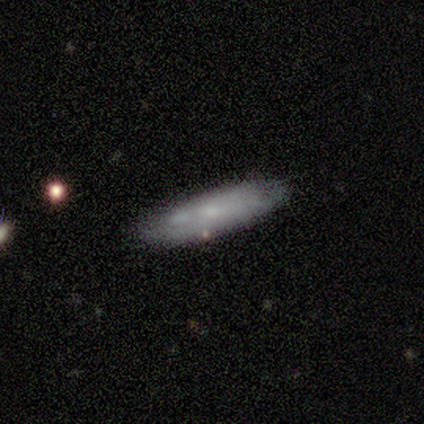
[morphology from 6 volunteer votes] smooth-or-featured: featured or disk: 50% | smooth: 33% | star or artifact: 17%
  disk-edge-on: no: 67% | yes: 33%
    bar: no: 100% | strong: 0% | weak: 0%
    has-spiral-arms: no: 100% | yes: 0%
    bulge-size: small: 100% | dominant: 0% | large: 0% | moderate: 0% | none: 0%
  merging: none: 80% | minor disturbance: 20% | major disturbance: 0% | merger: 0%